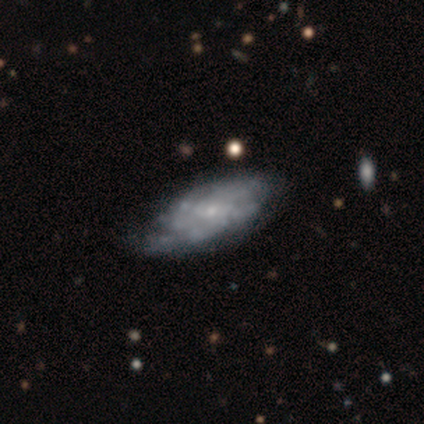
Overall: featured or disk (80%). Edge-on disk: no (100%). Bar: no (75%). Spiral arms: yes (75%). Spiral arm count: can't tell (67%; 2 33%). Spiral winding: tight (100%). Bulge size: small (75%). Merging: minor disturbance (60%; none 20%).